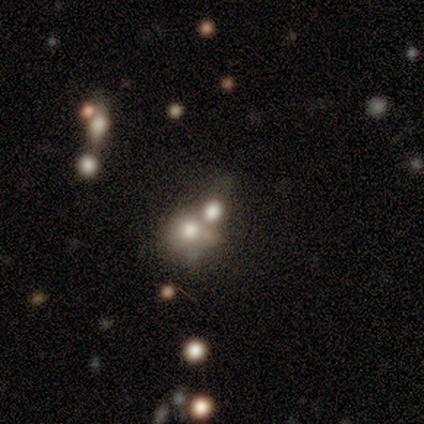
Smooth or featured? 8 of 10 (80%) said smooth. How rounded? 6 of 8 (75%) said round. Merging? 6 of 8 (75%) said merger.